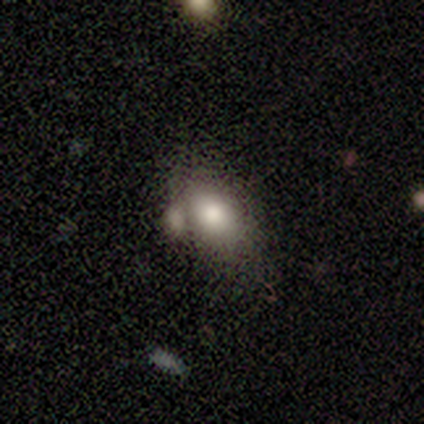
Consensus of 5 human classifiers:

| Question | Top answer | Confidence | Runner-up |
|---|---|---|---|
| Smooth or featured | smooth | 60% | featured or disk (20%) |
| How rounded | in between | 100% | — |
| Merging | merger | 50% | none (25%) |